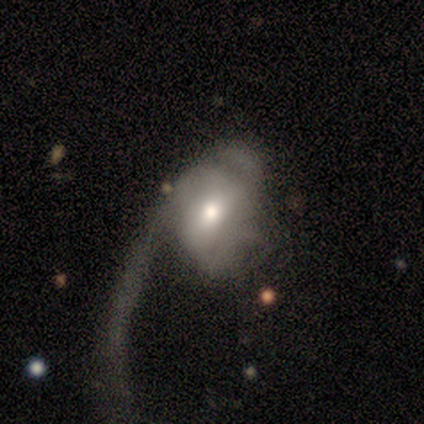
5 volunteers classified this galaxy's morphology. A featured or disk galaxy (60%) with no bar (67%), 1 (33%, tied with 3 and can't tell) loose (67%) spiral arms (100%) and a moderate central bulge (67%). Merging: major disturbance (60%).